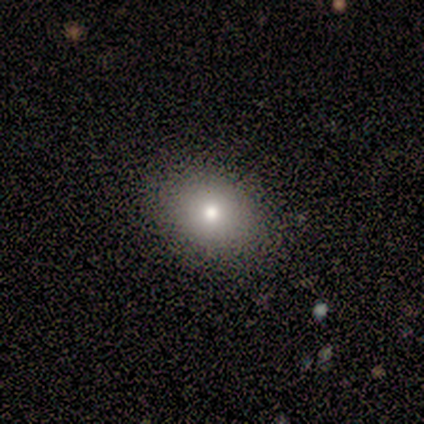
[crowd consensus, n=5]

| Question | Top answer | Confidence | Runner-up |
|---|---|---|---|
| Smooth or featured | smooth | 100% | — |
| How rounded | round | 60% | in between (40%) |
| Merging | none | 100% | — |